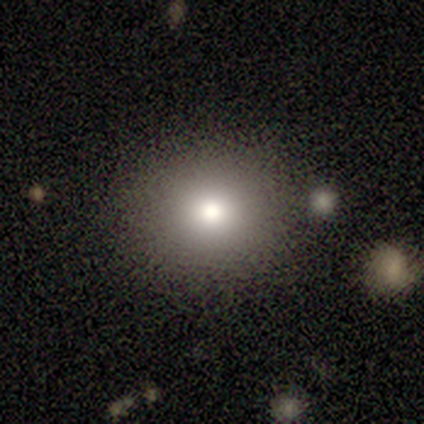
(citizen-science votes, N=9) Smooth or featured?
  - smooth: 67% *
  - star or artifact: 33%
  - featured or disk: 0%
How rounded?
  - round: 83% *
  - in between: 17%
  - cigar-shaped: 0%
Merging?
  - none: 100% *
  - minor disturbance: 0%
  - major disturbance: 0%
  - merger: 0%